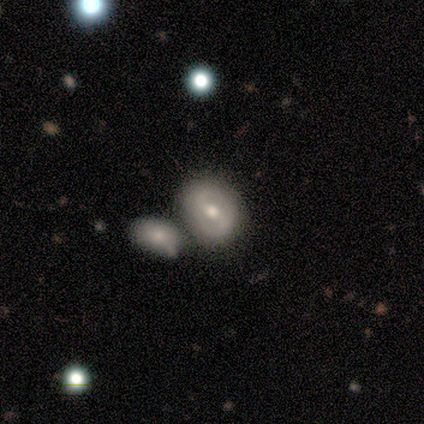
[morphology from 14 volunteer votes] featured or disk 50%, smooth 43%, star or artifact 7%. Down the decision tree: edge-on disk — no (86%); bar — strong (50%, tied with weak); spiral arms — yes (100%); spiral arm count — 2 (83%); spiral winding — tight (67%); bulge size — moderate (67%); merging — none (54%).